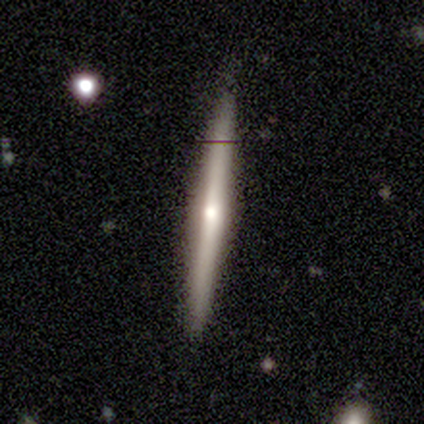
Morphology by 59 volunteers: This is likely a featured or disk galaxy (75%). It is clearly viewed edge-on (100%). Edge-on bulge: clearly rounded (82%). Merging: clearly none (94%).